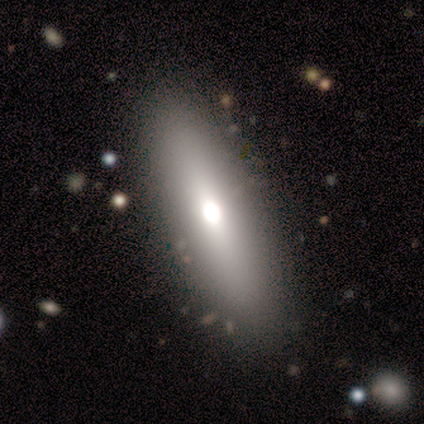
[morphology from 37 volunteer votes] type=smooth (59%); roundness=in between (73%); merging=none (94%).